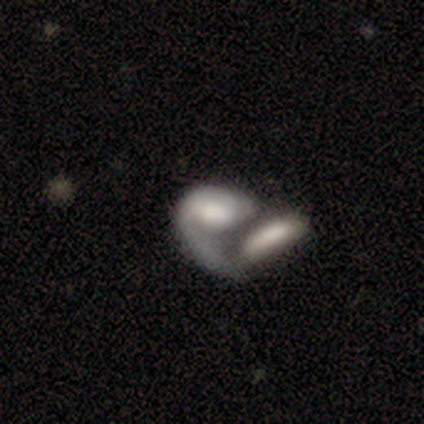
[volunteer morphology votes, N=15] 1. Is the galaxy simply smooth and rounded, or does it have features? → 53% featured or disk, 47% smooth, 0% star or artifact.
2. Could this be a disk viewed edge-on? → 100% no, 0% yes.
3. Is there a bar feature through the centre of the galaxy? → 50% weak (tied), 50% no (tied), 0% strong.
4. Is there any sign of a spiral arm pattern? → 62% yes, 38% no.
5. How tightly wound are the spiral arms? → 40% tight (tied), 40% medium (tied), 20% loose.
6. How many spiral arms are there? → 80% 1, 20% can't tell, 0% 2, 0% 3, 0% 4, 0% more than 4.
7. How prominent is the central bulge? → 62% large, 12% dominant, 12% moderate, 12% none, 0% small.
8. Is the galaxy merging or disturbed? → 93% merger, 7% none, 0% minor disturbance, 0% major disturbance.